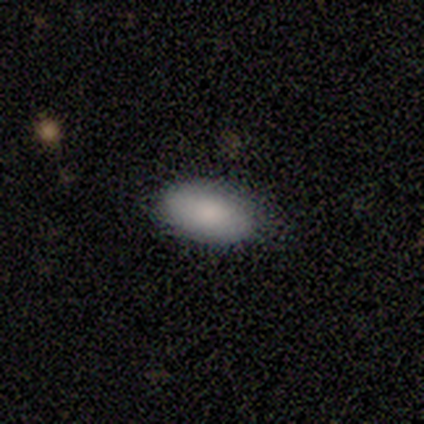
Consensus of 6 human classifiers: Smooth or featured? 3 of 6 (50%, tied with featured or disk) said smooth. How rounded? 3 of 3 (100%) said in between. Merging? 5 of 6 (83%) said none.